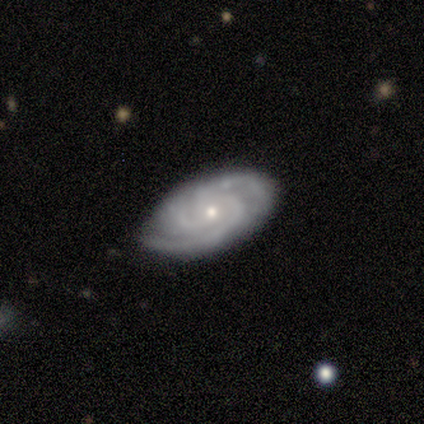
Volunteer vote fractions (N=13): Overall: featured or disk (92%). Edge-on disk: no (100%). Bar: no (75%). Spiral arms: yes (100%). Spiral arm count: 3 (67%). Spiral winding: tight (67%). Bulge size: moderate (50%; small 42%). Merging: none (62%; minor disturbance 31%).